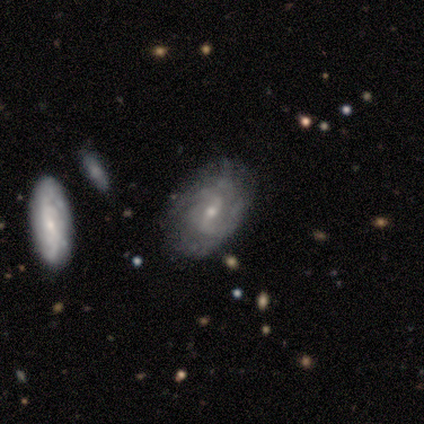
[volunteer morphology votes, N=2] Smooth or featured: featured or disk — 100%
Edge-on disk: yes — 50% (tied with no — 50%)
Edge-on bulge: rounded — 100%
Merging: none — 50% (tied with major disturbance — 50%)